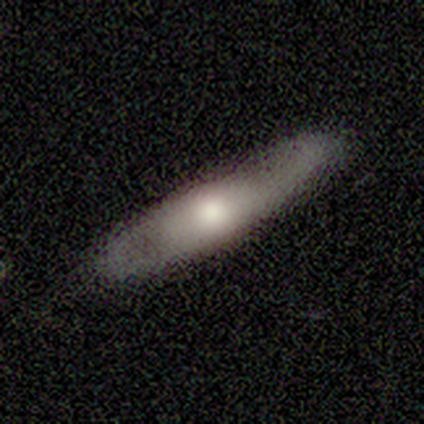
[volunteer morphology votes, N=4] A featured or disk galaxy (75%) with no bar (100%), 2 (100%) medium (50%, tied with loose) spiral arms (100%) and a small central bulge (100%).

Vote fractions:
- Smooth or featured? featured or disk: 75% / smooth: 25% / star or artifact: 0%
- Edge-on disk? no: 67% / yes: 33%
- Bar? no: 100% / strong: 0% / weak: 0%
- Spiral arms? yes: 100% / no: 0%
- Spiral winding? medium: 50% (tied) / loose: 50% (tied) / tight: 0%
- Spiral arm count? 2: 100% / 1: 0% / 3: 0% / 4: 0% / more than 4: 0% / can't tell: 0%
- Bulge size? small: 100% / dominant: 0% / large: 0% / moderate: 0% / none: 0%
- Merging? none: 100% / minor disturbance: 0% / major disturbance: 0% / merger: 0%